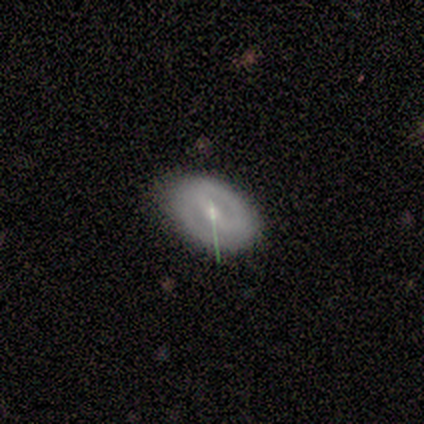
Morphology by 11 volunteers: type=smooth (45%, tied with featured or disk); roundness=in between (80%); merging=none (60%).